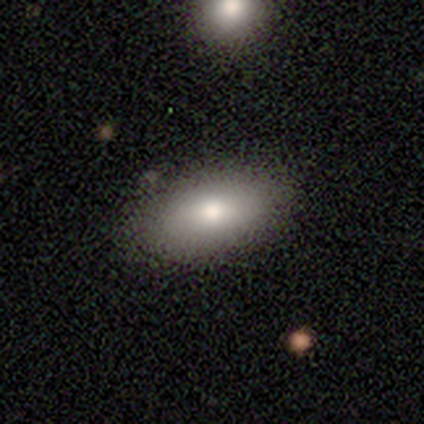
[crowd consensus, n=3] This appears to be a smooth galaxy with no disk features (67%) that is in between round and cigar-shaped (100%). Merging: none (100%).